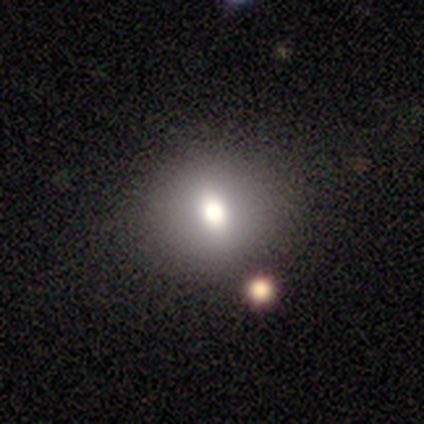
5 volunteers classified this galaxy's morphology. Overall: smooth (60%; featured or disk 40%). How rounded: round (67%; in between 33%). Merging: none (40%; minor disturbance 20%).